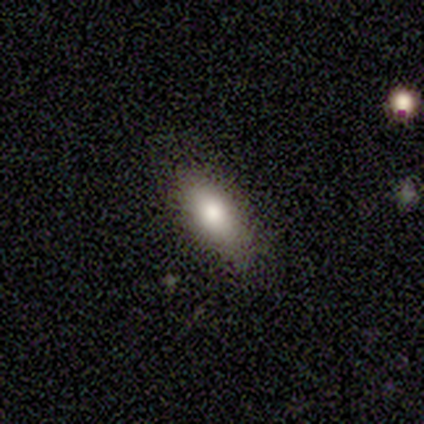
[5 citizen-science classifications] Volunteers were most divided on "how rounded": in between: 80%, cigar-shaped: 20%, round: 0%. More confident: smooth or featured — smooth (100%); merging — none (80%).